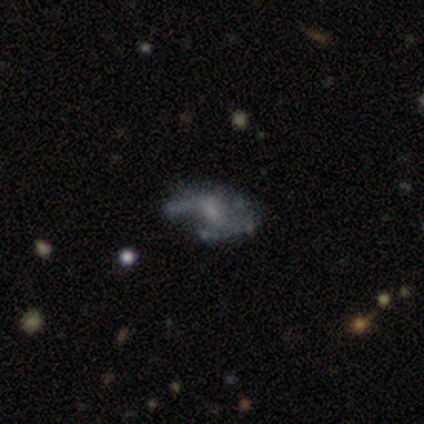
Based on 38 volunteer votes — Smooth or featured? 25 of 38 (66%) said featured or disk. Edge-on disk? 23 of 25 (92%) said no. Bar? 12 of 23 (52%) said weak. Spiral arms? 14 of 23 (61%) said no. Bulge size? 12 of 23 (52%) said small. Merging? 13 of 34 (38%) said major disturbance.